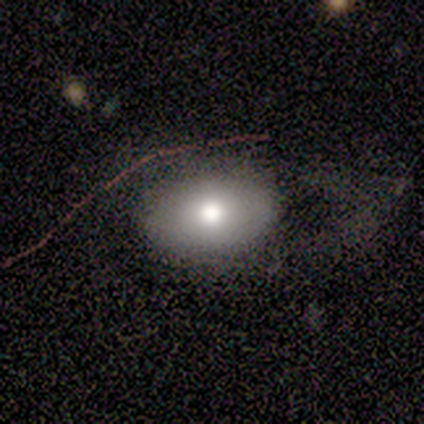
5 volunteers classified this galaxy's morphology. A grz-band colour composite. It shows a smooth galaxy with no disk features (40%, tied with featured or disk) that is round (50%, tied with in between). Merging: minor disturbance (50%).